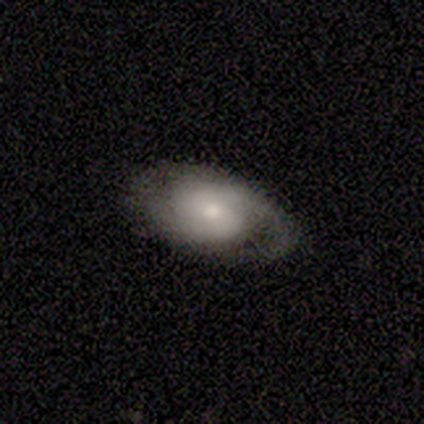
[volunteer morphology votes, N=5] Overall: featured or disk (100%). Edge-on disk: no (100%). Bar: no (60%; weak 40%). Spiral arms: yes (100%). Spiral arm count: 2 (100%). Spiral winding: tight (60%; medium 40%). Bulge size: small (80%). Merging: none (80%).